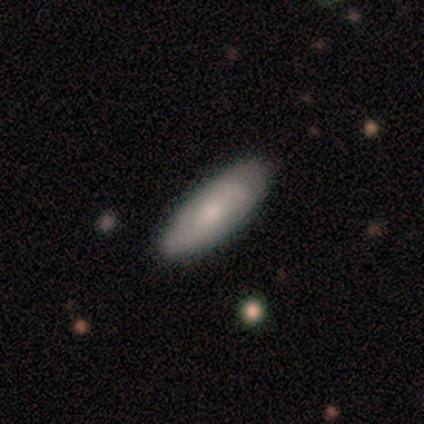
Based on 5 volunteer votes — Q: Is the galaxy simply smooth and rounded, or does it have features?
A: smooth — 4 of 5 (80%).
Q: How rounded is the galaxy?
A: in between — 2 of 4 (50%, tied with cigar-shaped).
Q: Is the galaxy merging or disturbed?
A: none — 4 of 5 (80%).